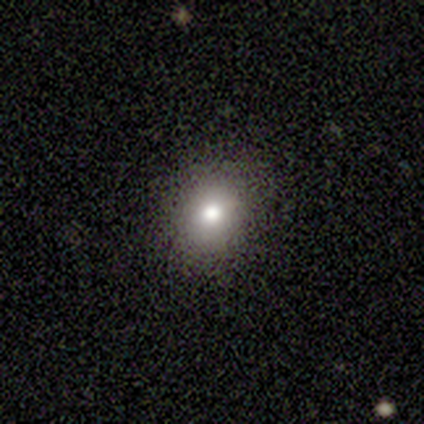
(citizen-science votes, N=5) Morphology: type=smooth (60%); roundness=round (100%); merging=none (100%).